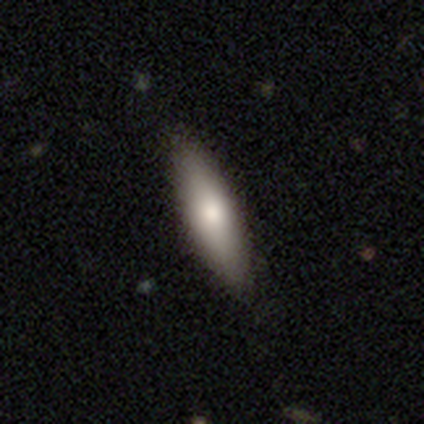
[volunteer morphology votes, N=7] A smooth galaxy with no disk features (86%) that is cigar-shaped (67%).

Vote fractions:
- Smooth or featured? smooth: 86% / featured or disk: 14% / star or artifact: 0%
- How rounded? cigar-shaped: 67% / in between: 33% / round: 0%
- Merging? none: 71% / minor disturbance: 29% / major disturbance: 0% / merger: 0%